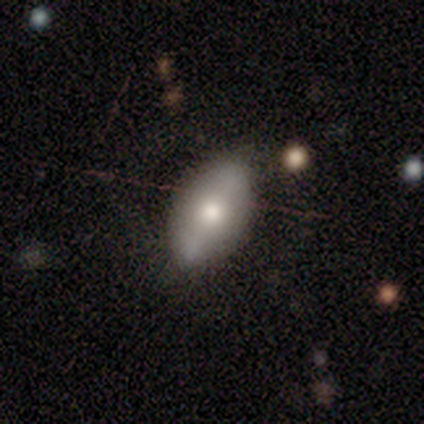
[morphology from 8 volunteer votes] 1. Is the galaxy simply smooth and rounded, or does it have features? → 62% smooth, 25% featured or disk, 12% star or artifact.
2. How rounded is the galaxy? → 100% in between, 0% round, 0% cigar-shaped.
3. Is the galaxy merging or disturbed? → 57% minor disturbance, 29% none, 14% merger, 0% major disturbance.